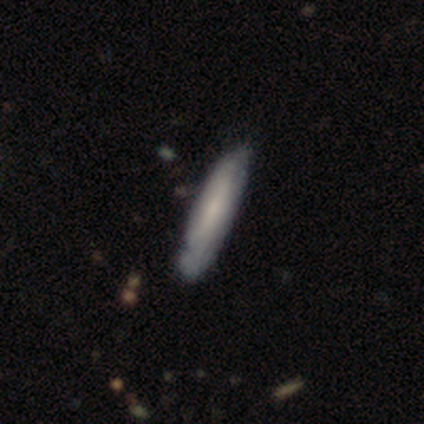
This appears to be a smooth galaxy with no disk features (55%) that is cigar-shaped (91%). Merging: none (52%).